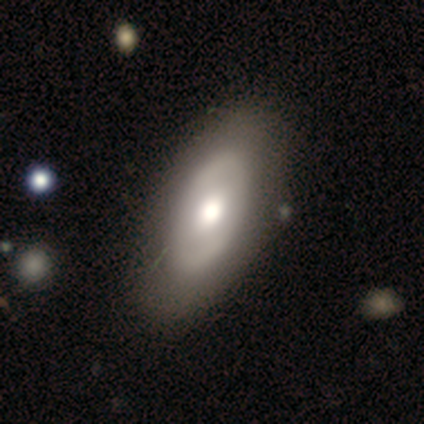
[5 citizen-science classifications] Smooth or featured: featured or disk — 80% (smooth — 20%)
Edge-on disk: no — 75% (yes — 25%)
Bar: no — 67% (strong — 33%)
Spiral arms: no — 67% (yes — 33%)
Bulge size: moderate — 67% (large — 33%)
Merging: none — 100%